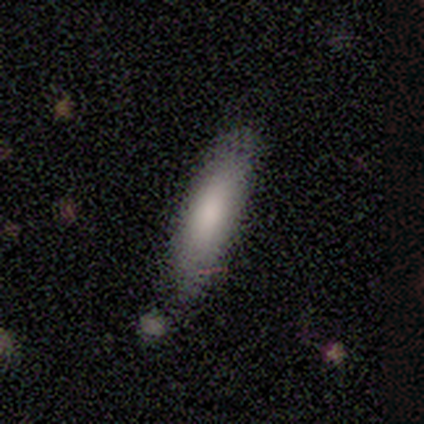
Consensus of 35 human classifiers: Smooth or featured? smooth (80%)
How rounded? cigar-shaped (68%)
Merging? none (81%)